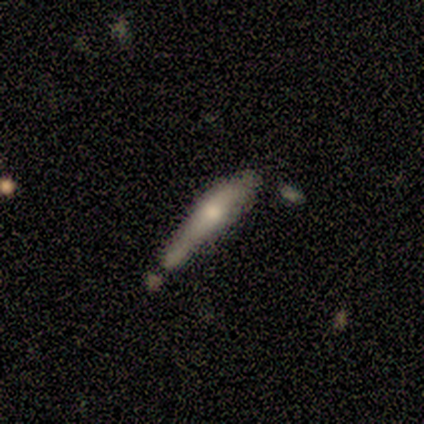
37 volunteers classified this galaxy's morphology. Smooth or featured? 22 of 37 (59%) said smooth. How rounded? 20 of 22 (91%) said cigar-shaped. Merging? 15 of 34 (44%) said none.